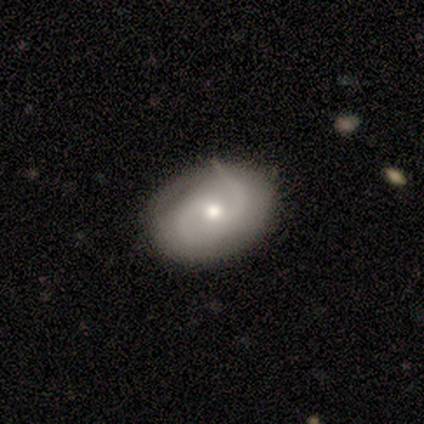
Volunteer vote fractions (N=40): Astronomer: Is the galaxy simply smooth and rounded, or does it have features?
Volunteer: featured or disk — 65%.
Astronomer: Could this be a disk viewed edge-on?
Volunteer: no — 100%.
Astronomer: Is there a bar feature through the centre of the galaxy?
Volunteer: no — 62%.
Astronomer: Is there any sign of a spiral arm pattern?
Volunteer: yes — 85%.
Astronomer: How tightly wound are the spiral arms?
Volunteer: medium — 45% (runner-up: tight, 36%).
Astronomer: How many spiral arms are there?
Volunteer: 2 — 77%.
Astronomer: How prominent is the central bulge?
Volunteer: moderate — 50% (runner-up: small, 42%).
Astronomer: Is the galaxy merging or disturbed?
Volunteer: none — 70%.